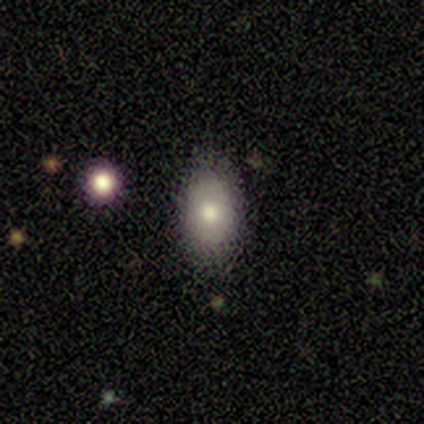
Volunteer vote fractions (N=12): Morphology: type=smooth (75%); roundness=in between (78%); merging=none (75%).